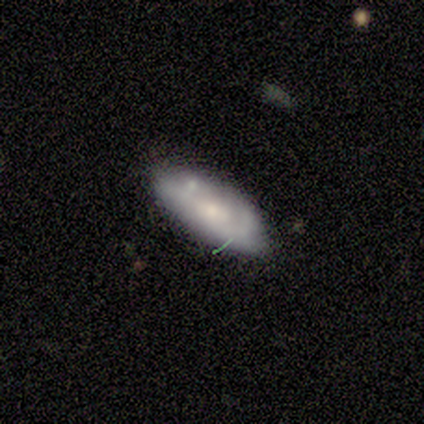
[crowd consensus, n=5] smooth_or_featured: featured or disk (p=0.80) [alt: smooth p=0.20]
disk_edge_on: no (p=1.00)
bar: no (p=0.75) [alt: weak p=0.25]
has_spiral_arms: yes (p=0.75) [alt: no p=0.25]
spiral_winding: loose (p=0.67) [alt: tight p=0.33]
spiral_arm_count: 1 (p=0.67) [alt: can't tell p=0.33]
bulge_size: moderate (p=0.50) [tied with: small p=0.50]
merging: none (p=0.80) [alt: merger p=0.20]